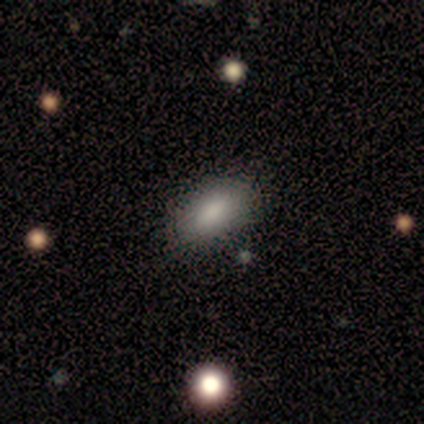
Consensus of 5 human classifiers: A smooth galaxy with no disk features (60%) that is in between round and cigar-shaped (100%). Merging: none (100%).